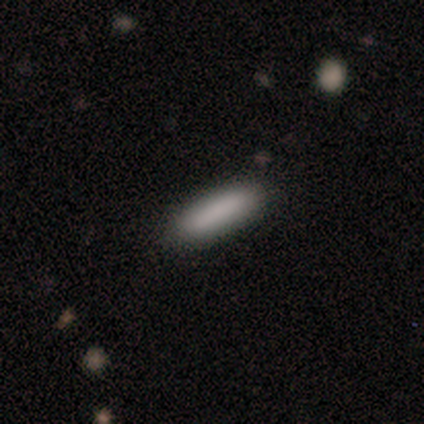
Smooth or featured? 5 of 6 (83%) said smooth. How rounded? 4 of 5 (80%) said in between. Merging? 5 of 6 (83%) said none.